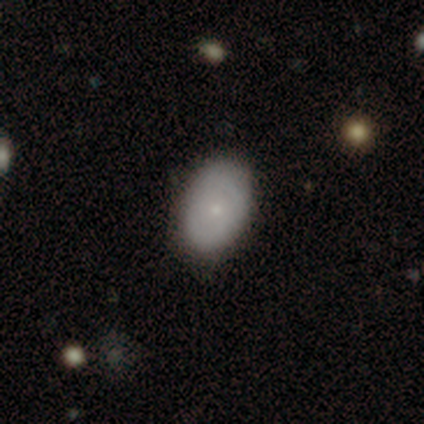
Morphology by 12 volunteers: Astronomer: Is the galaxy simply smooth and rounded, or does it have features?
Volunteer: smooth — 83%.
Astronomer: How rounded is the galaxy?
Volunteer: in between — 90%.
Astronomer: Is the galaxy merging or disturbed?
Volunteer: none — 91%.